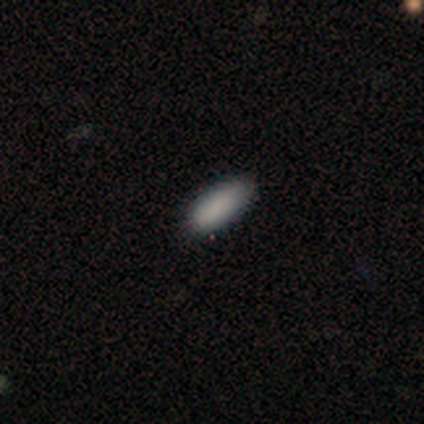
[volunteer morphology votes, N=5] This appears to be a smooth galaxy with no disk features (100%) that is in between round and cigar-shaped (100%). Merging: none (80%).